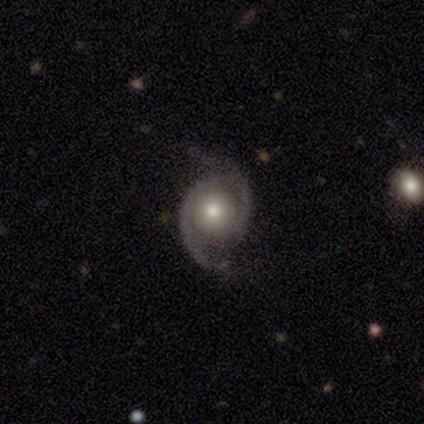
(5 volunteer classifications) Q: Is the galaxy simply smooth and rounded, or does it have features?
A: featured or disk — 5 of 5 (100%).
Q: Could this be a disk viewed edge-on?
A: no — 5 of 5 (100%).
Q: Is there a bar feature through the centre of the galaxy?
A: no — 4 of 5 (80%).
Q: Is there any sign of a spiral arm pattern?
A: yes — 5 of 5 (100%).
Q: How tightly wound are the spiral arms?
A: medium — 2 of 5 (40%, tied with loose).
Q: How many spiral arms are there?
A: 2 — 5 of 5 (100%).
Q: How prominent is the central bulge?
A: moderate — 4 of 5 (80%).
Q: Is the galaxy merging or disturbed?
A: none — 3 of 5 (60%).